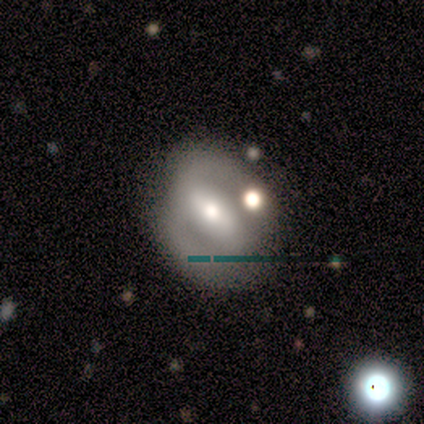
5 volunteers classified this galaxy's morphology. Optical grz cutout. It shows a featured or disk galaxy (60%) with a strong bar (67%), 2 (100%) medium (67%) spiral arms (100%) and a moderate central bulge (100%). Merging: none (80%).